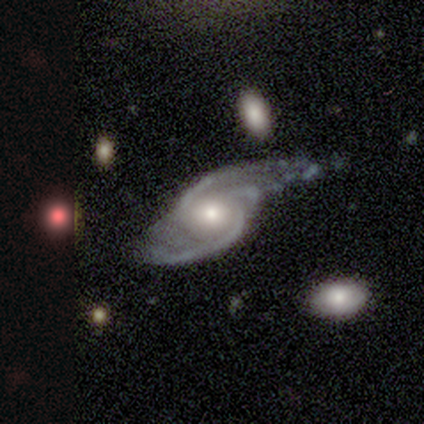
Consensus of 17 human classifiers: Morphology: type=featured or disk (94%); edge-on=no (100%); bar=no (88%); spiral arms=yes (100%); winding=medium (56%); arm count=2 (56%); bulge=moderate (75%); merging=major disturbance (50%).